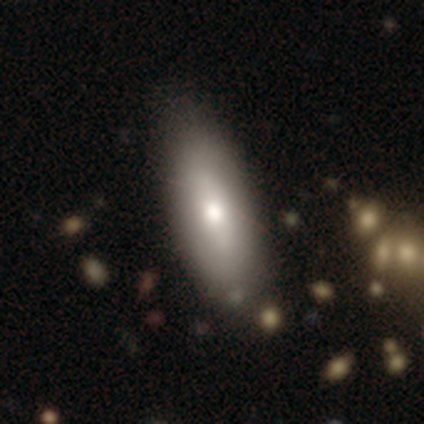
Smooth or featured? smooth (60%)
How rounded? in between (100%)
Merging? none (60%)